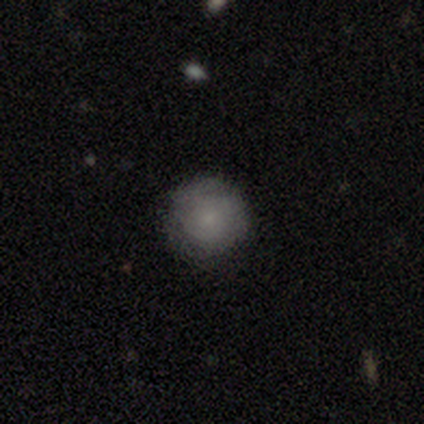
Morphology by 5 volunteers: smooth-or-featured: smooth: 100% | featured or disk: 0% | star or artifact: 0%
  how-rounded: round: 100% | in between: 0% | cigar-shaped: 0%
  merging: none: 100% | minor disturbance: 0% | major disturbance: 0% | merger: 0%